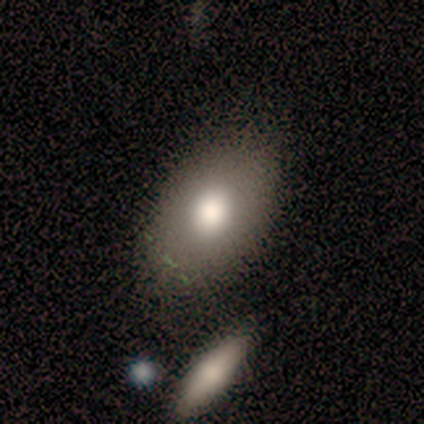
smooth 50% (tied), featured or disk 50% (tied), star or artifact 0%. Down the decision tree: how rounded — in between (100%); merging — none (75%).